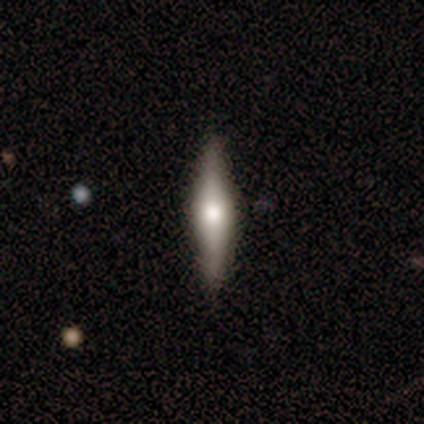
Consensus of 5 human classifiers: This is likely a featured or disk galaxy (60%). It is clearly viewed edge-on (100%). Edge-on bulge: clearly rounded (100%). Merging: clearly none (100%).